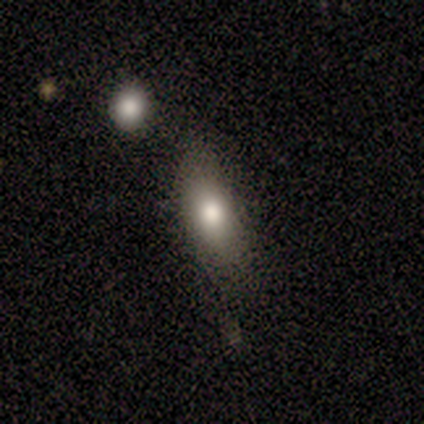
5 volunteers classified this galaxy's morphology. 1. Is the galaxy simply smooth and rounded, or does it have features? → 80% smooth, 20% star or artifact, 0% featured or disk.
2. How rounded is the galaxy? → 50% in between (tied), 50% cigar-shaped (tied), 0% round.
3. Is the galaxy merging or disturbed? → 50% none, 25% minor disturbance, 25% merger, 0% major disturbance.